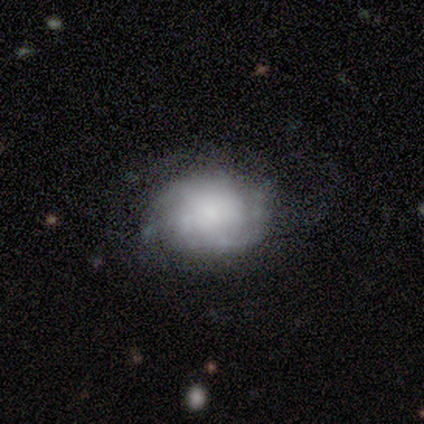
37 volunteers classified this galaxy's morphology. Smooth or featured: featured or disk — 62% (smooth — 30%)
Edge-on disk: no — 100%
Bar: no — 78% (weak — 13%)
Spiral arms: yes — 91% (no — 9%)
Spiral winding: tight — 48% (tied with medium — 48%)
Spiral arm count: can't tell — 48% (2 — 24%)
Bulge size: small — 52% (moderate — 22%)
Merging: none — 59% (minor disturbance — 26%)